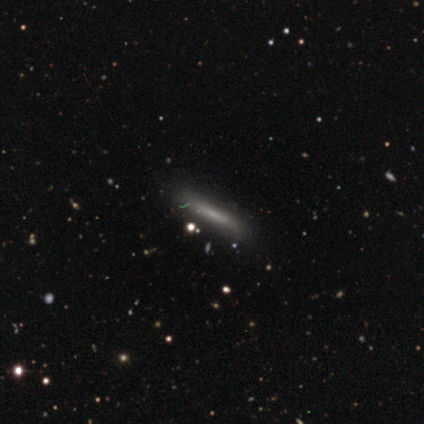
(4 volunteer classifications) Morphology: type=smooth (75%); roundness=cigar-shaped (100%); merging=none (100%).